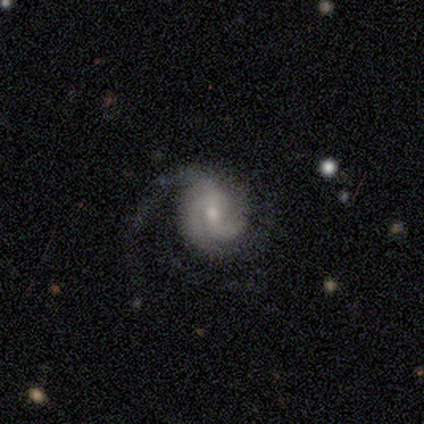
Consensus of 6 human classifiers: Smooth or featured: featured or disk — 100%
Edge-on disk: no — 100%
Bar: weak — 50% (strong — 33%)
Spiral arms: yes — 83% (no — 17%)
Spiral winding: medium — 80% (tight — 20%)
Spiral arm count: 2 — 60% (3 — 20%)
Bulge size: moderate — 67% (small — 33%)
Merging: none — 50% (tied with major disturbance — 50%)